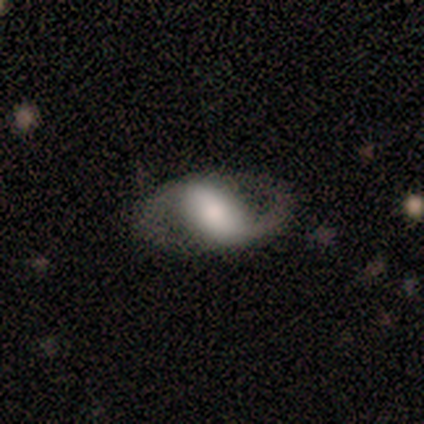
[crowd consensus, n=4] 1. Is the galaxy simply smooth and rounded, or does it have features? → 100% featured or disk, 0% smooth, 0% star or artifact.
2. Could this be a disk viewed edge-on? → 100% no, 0% yes.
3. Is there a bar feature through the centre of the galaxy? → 75% strong, 25% weak, 0% no.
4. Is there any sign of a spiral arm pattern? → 50% yes (tied), 50% no (tied).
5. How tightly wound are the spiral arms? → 50% medium (tied), 50% loose (tied), 0% tight.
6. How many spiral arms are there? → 100% 2, 0% 1, 0% 3, 0% 4, 0% more than 4, 0% can't tell.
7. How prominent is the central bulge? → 50% large, 25% moderate, 25% small, 0% dominant, 0% none.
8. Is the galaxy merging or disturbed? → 100% none, 0% minor disturbance, 0% major disturbance, 0% merger.